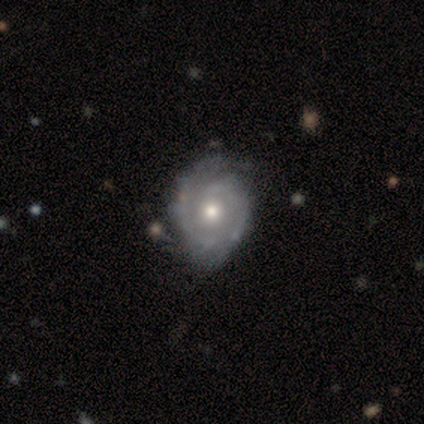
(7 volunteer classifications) Q: Smooth or featured?
A: featured or disk (100%)
Q: Edge-on disk?
A: no (100%)
Q: Bar?
A: no (57%); runner-up: weak (43%)
Q: Spiral arms?
A: yes (100%)
Q: Spiral winding?
A: tight (71%); runner-up: medium (29%)
Q: Spiral arm count?
A: 2 (57%); runner-up: 1 (43%)
Q: Bulge size?
A: moderate (86%); runner-up: none (14%)
Q: Merging?
A: none (43%); tied with: minor disturbance (43%)